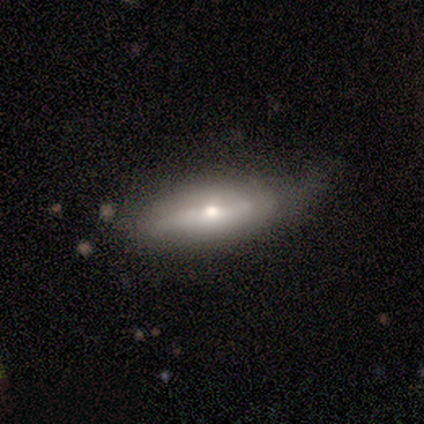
This is clearly a smooth galaxy (80%). How rounded: likely in between (75%). Merging: clearly none (80%).